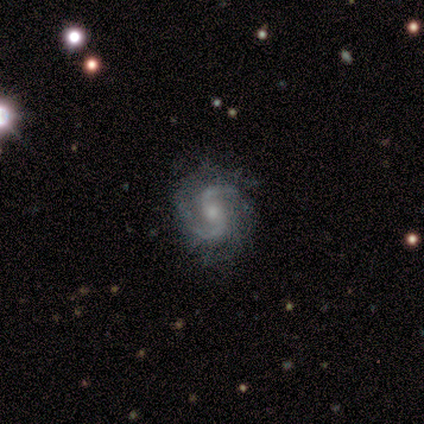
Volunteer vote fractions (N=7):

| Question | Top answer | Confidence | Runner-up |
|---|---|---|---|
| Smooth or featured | featured or disk | 100% | — |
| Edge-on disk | no | 100% | — |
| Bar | weak | 43% | strong (29%) |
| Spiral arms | yes | 86% | no (14%) |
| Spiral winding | medium | 50% | loose (33%) |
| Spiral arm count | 2 | 83% | can't tell (17%) |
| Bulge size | moderate | 71% | small (29%) |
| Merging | none | 100% | — |